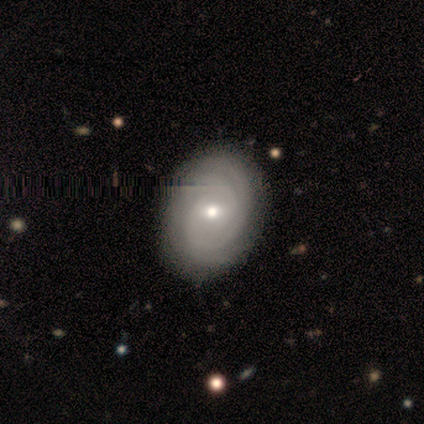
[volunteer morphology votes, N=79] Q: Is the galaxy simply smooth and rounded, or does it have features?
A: featured or disk — 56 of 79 (71%).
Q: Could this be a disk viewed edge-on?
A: no — 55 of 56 (98%).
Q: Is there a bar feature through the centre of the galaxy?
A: no — 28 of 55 (51%).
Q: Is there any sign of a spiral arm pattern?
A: yes — 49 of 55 (89%).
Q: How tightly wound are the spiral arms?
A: tight — 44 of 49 (90%).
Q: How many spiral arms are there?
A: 2 — 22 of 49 (45%).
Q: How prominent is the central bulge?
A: moderate — 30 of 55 (55%).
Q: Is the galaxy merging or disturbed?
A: none — 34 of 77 (44%).